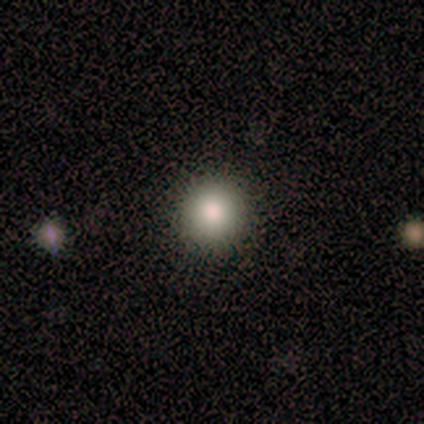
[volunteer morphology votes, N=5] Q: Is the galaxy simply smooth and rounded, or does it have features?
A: smooth — 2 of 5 (40%, tied with featured or disk).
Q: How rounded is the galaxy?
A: round — 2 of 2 (100%).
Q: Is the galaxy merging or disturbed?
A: none — 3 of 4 (75%).